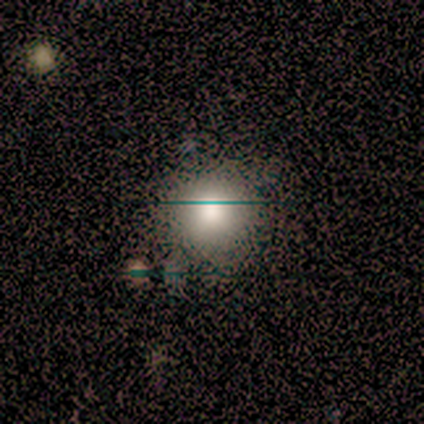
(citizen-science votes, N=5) Smooth or featured: smooth — 80% (star or artifact — 20%)
How rounded: round — 100%
Merging: minor disturbance — 50% (none — 25%)